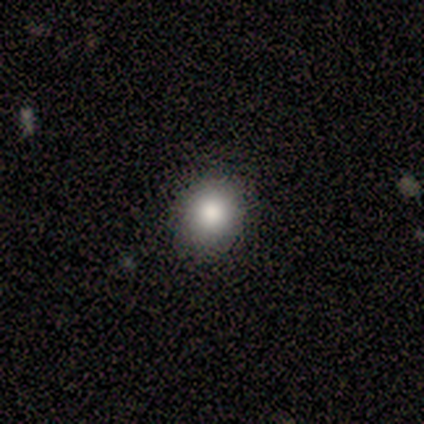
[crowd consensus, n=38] This appears to be a smooth galaxy with no disk features (76%) that is round (86%). Merging: none (91%).